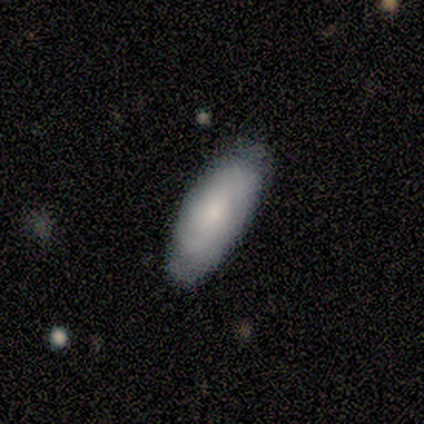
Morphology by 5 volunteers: A featured or disk galaxy (60%) with no bar (67%), 2 (67%) loose (67%) spiral arms (100%) and a small central bulge (100%).

Vote fractions:
- Smooth or featured? featured or disk: 60% / smooth: 40% / star or artifact: 0%
- Edge-on disk? no: 100% / yes: 0%
- Bar? no: 67% / weak: 33% / strong: 0%
- Spiral arms? yes: 100% / no: 0%
- Spiral winding? loose: 67% / tight: 33% / medium: 0%
- Spiral arm count? 2: 67% / 4: 33% / 1: 0% / 3: 0% / more than 4: 0% / can't tell: 0%
- Bulge size? small: 100% / dominant: 0% / large: 0% / moderate: 0% / none: 0%
- Merging? none: 100% / minor disturbance: 0% / major disturbance: 0% / merger: 0%